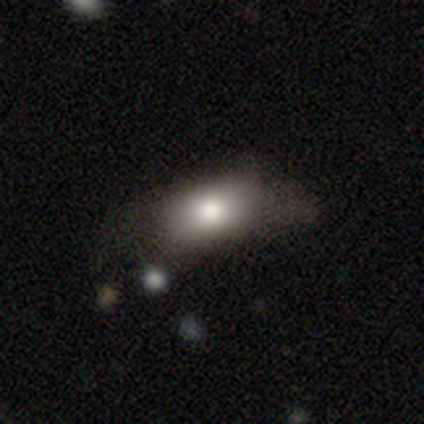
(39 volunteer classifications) Morphology: type=smooth (82%); roundness=in between (94%); merging=none (51%).